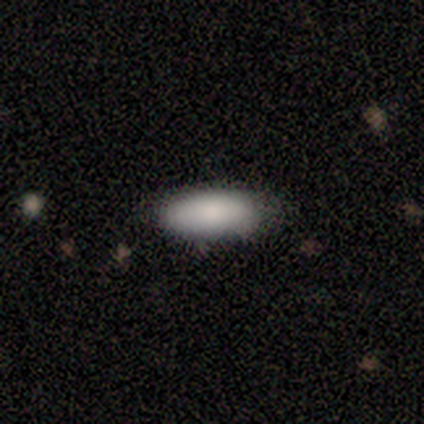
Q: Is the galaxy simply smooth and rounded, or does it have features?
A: smooth — 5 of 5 (100%).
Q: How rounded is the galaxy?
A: in between — 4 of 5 (80%).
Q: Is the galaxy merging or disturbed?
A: none — 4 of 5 (80%).